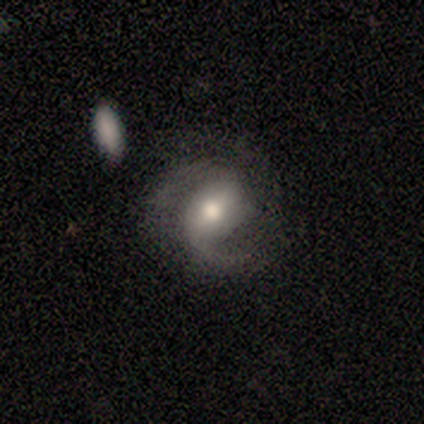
Morphology: type=featured or disk (80%); edge-on=no (97%); bar=weak (50%); spiral arms=yes (97%); winding=medium (58%); arm count=2 (85%); bulge=moderate (68%); merging=none (63%).